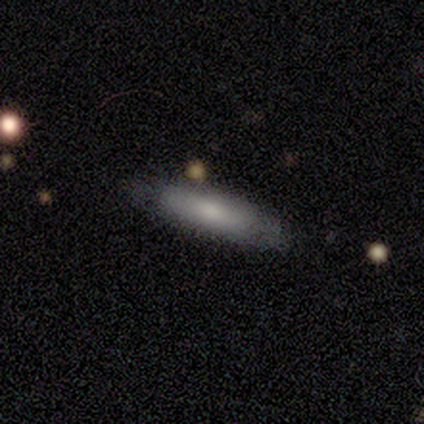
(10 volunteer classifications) Smooth or featured?
  - smooth: 80% *
  - featured or disk: 20%
  - star or artifact: 0%
How rounded?
  - cigar-shaped: 88% *
  - in between: 12%
  - round: 0%
Merging?
  - none: 60% *
  - minor disturbance: 40%
  - major disturbance: 0%
  - merger: 0%